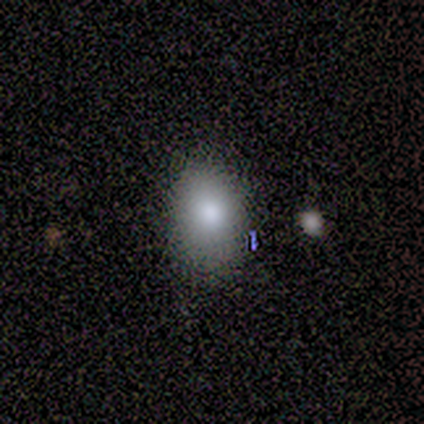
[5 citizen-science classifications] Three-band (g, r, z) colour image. It shows a smooth galaxy with no disk features (80%) that is in between round and cigar-shaped (75%). Merging: none (75%).